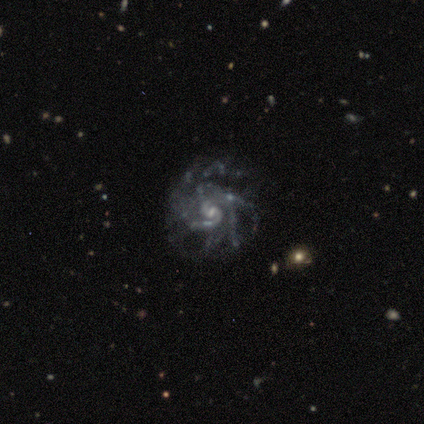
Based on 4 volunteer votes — Smooth or featured? featured or disk (100%)
Edge-on disk? no (100%)
Bar? weak (50%, tied with no)
Spiral arms? yes (100%)
Spiral winding? tight (75%)
Spiral arm count? more than 4 (50%)
Bulge size? small (75%)
Merging? none (100%)